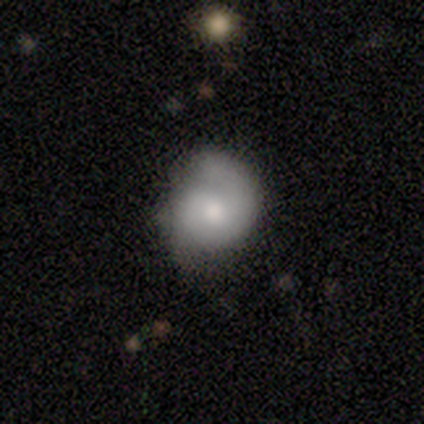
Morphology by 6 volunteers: Smooth or featured? smooth (83%)
How rounded? round (80%)
Merging? none (50%)